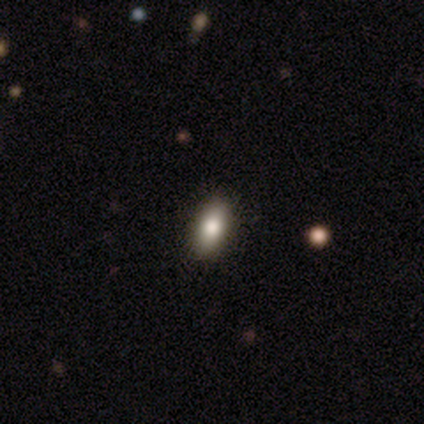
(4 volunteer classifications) Consensus on every question: smooth or featured — smooth (100%); how rounded — in between (100%); merging — none (100%).